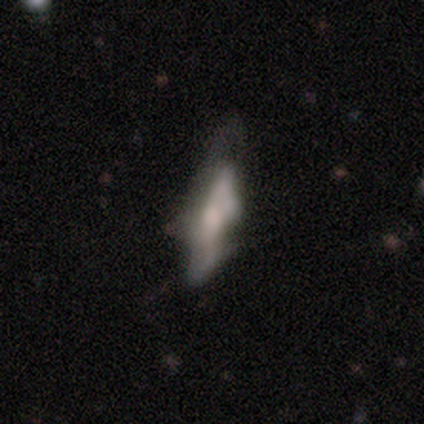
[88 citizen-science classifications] smooth-or-featured: smooth: 45% | featured or disk: 44% | star or artifact: 10%
  how-rounded: cigar-shaped: 60% | in between: 38% | round: 2%
  merging: minor disturbance: 38% | none: 28% | major disturbance: 28% | merger: 6%